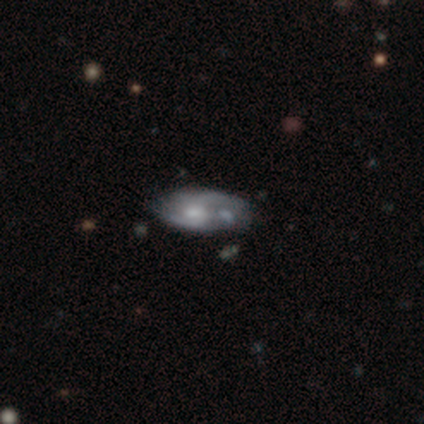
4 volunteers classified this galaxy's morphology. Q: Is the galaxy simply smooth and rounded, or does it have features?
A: featured or disk — 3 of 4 (75%).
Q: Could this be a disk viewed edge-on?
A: no — 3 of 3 (100%).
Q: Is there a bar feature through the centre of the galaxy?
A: no — 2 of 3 (67%).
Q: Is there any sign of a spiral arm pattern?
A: yes — 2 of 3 (67%).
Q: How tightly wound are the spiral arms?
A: tight — 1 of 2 (50%, tied with medium).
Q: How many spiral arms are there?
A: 2 — 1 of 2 (50%, tied with can't tell).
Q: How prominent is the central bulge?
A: moderate — 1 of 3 (33%, tied with small and none).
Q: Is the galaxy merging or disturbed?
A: none — 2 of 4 (50%, tied with minor disturbance).